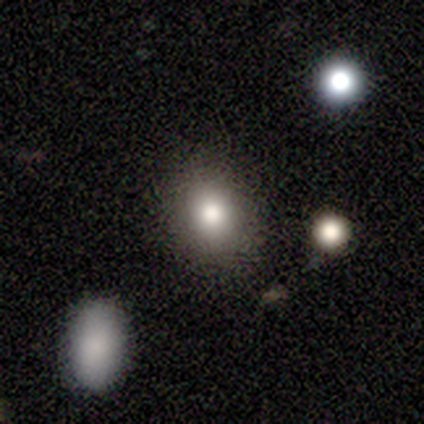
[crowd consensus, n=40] This appears to be a smooth galaxy with no disk features (82%) that is round (52%). Merging: none (84%).